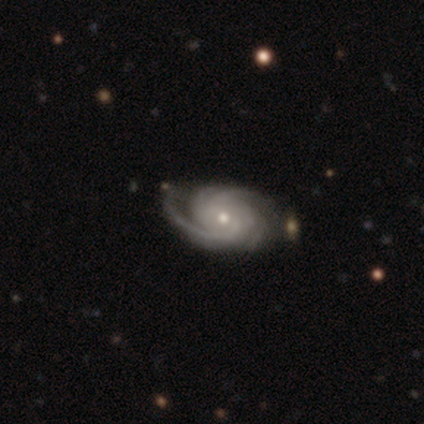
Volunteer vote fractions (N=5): A featured or disk galaxy (100%) with no bar (80%), 4 (60%) tight (80%) spiral arms (100%) and a small central bulge (60%).

Vote fractions:
- Smooth or featured? featured or disk: 100% / smooth: 0% / star or artifact: 0%
- Edge-on disk? no: 100% / yes: 0%
- Bar? no: 80% / strong: 20% / weak: 0%
- Spiral arms? yes: 100% / no: 0%
- Spiral winding? tight: 80% / medium: 20% / loose: 0%
- Spiral arm count? 4: 60% / 3: 20% / can't tell: 20% / 1: 0% / 2: 0% / more than 4: 0%
- Bulge size? small: 60% / moderate: 40% / dominant: 0% / large: 0% / none: 0%
- Merging? none: 80% / minor disturbance: 20% / major disturbance: 0% / merger: 0%